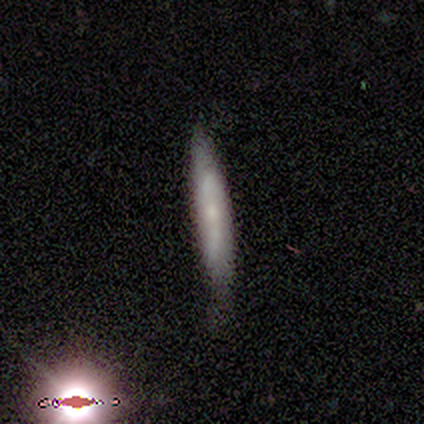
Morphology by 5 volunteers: Overall: featured or disk (80%). Edge-on disk: yes (75%). Edge-on bulge: none (67%; rounded 33%). Merging: minor disturbance (60%; none 40%).